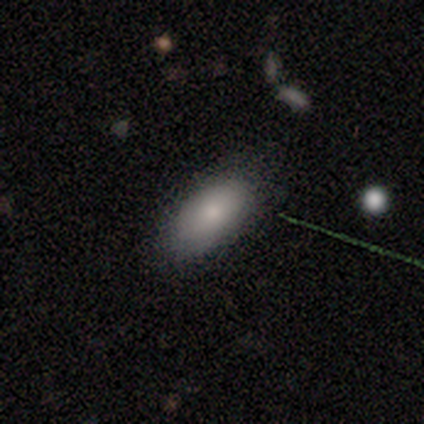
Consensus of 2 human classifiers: Overall: smooth (100%). How rounded: in between (50%, tied with cigar-shaped). Merging: none (50%, tied with minor disturbance).